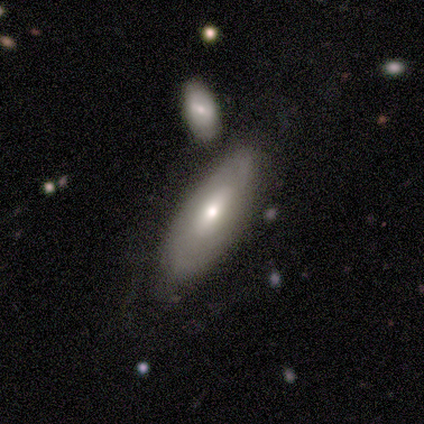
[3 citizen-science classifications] Q: Smooth or featured?
A: smooth (100%)
Q: How rounded?
A: in between (67%); runner-up: cigar-shaped (33%)
Q: Merging?
A: none (100%)